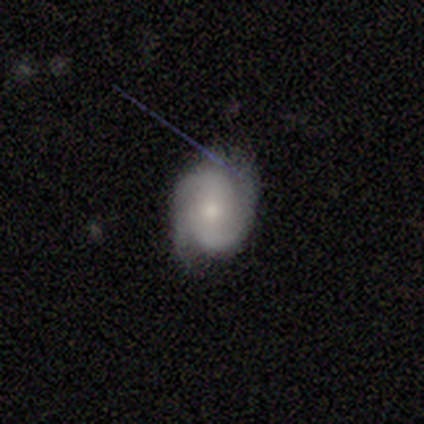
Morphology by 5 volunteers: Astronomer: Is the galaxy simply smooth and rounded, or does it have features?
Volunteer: featured or disk — 100%.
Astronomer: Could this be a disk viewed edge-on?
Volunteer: no — 100%.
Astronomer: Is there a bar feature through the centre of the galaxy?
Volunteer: no — 80%.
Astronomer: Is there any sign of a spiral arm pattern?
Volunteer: yes — 100%.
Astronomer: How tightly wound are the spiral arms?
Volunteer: tight — 80%.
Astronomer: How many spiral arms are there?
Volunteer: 3 — 60% (runner-up: 2, 40%).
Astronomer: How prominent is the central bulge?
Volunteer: small — 60% (runner-up: moderate, 40%).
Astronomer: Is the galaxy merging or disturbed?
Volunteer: none — 100%.